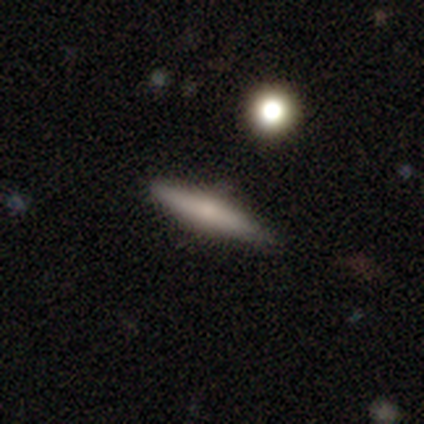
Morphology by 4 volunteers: Smooth or featured: smooth — 75% (featured or disk — 25%)
How rounded: cigar-shaped — 67% (in between — 33%)
Merging: none — 100%